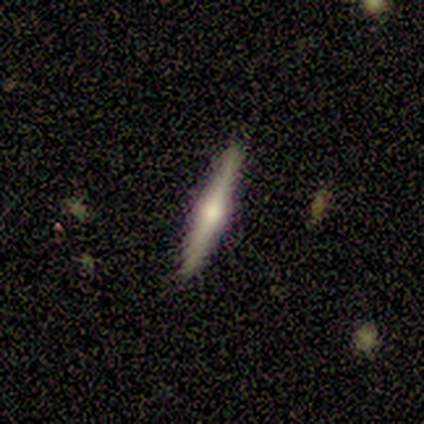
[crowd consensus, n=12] featured or disk 75%, smooth 25%, star or artifact 0%. Down the decision tree: edge-on disk — yes (100%); edge-on bulge — rounded (89%); merging — none (92%).